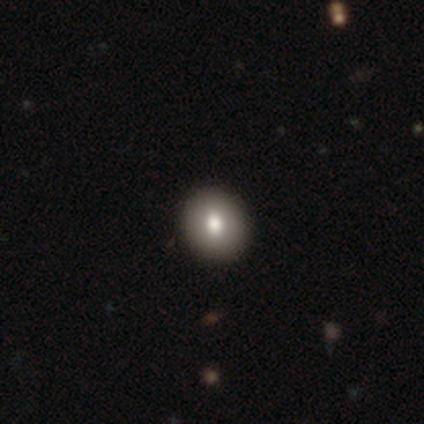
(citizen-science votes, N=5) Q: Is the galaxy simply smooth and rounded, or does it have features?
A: smooth — 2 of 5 (40%, tied with featured or disk).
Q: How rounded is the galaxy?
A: round — 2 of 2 (100%).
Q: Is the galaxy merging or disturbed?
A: none — 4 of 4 (100%).